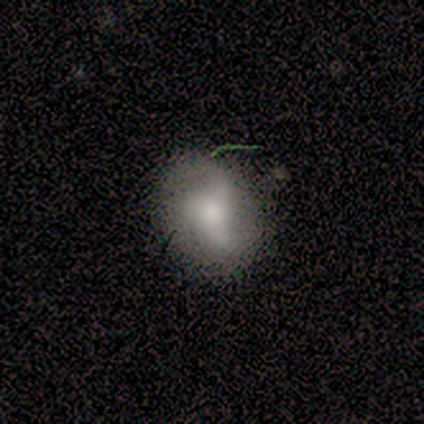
smooth_or_featured: featured or disk (p=0.50) [alt: smooth p=0.33]
disk_edge_on: no (p=1.00)
bar: strong (p=0.33) [tied with: weak p=0.33, no p=0.33]
has_spiral_arms: yes (p=1.00)
spiral_winding: medium (p=0.67) [alt: loose p=0.33]
spiral_arm_count: 3 (p=1.00)
bulge_size: large (p=0.67) [alt: small p=0.33]
merging: none (p=0.40) [tied with: minor disturbance p=0.40]